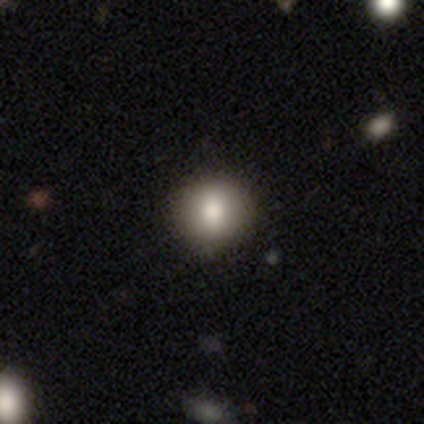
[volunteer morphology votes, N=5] smooth-or-featured: smooth: 100% | featured or disk: 0% | star or artifact: 0%
  how-rounded: round: 100% | in between: 0% | cigar-shaped: 0%
  merging: none: 100% | minor disturbance: 0% | major disturbance: 0% | merger: 0%